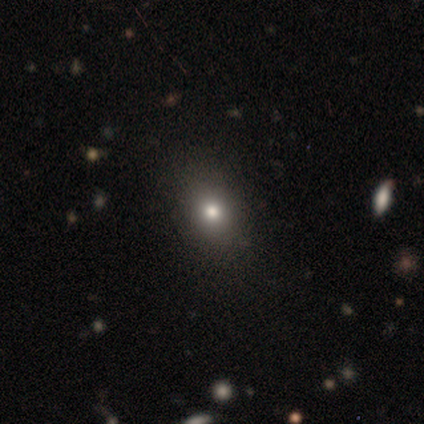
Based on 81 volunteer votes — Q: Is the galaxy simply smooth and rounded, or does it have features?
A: smooth — 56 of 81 (69%).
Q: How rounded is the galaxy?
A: in between — 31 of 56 (55%).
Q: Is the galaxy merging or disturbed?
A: none — 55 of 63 (87%).